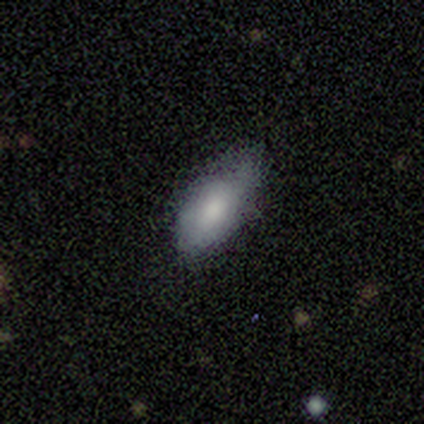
smooth-or-featured: smooth: 100% | featured or disk: 0% | star or artifact: 0%
  how-rounded: in between: 60% | round: 20% | cigar-shaped: 20%
  merging: minor disturbance: 60% | none: 20% | major disturbance: 20% | merger: 0%